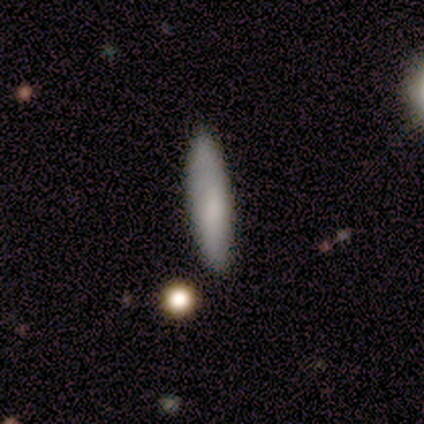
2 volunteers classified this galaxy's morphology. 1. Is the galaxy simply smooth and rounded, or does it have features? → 100% smooth, 0% featured or disk, 0% star or artifact.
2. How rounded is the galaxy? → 100% cigar-shaped, 0% round, 0% in between.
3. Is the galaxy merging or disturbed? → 100% none, 0% minor disturbance, 0% major disturbance, 0% merger.